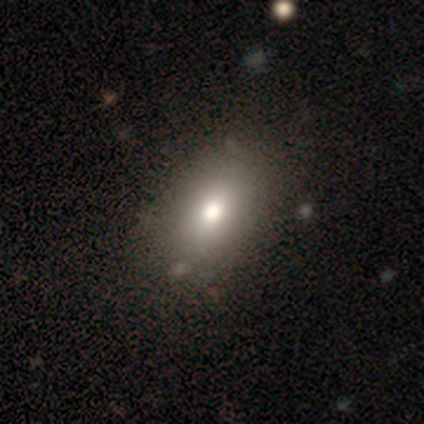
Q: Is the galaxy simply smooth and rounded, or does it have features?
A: smooth — 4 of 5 (80%).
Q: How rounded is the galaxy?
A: in between — 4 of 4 (100%).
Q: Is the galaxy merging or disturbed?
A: none — 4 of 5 (80%).